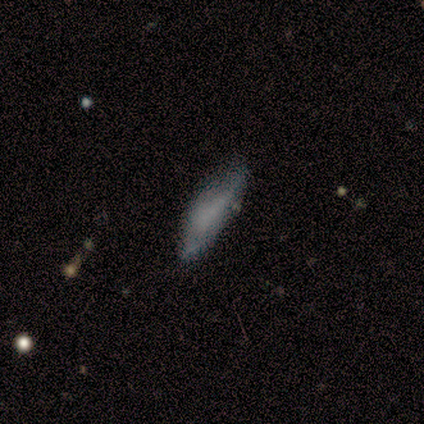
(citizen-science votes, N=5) Volunteers were most divided on "merging" (2-way tie): none: 40%, minor disturbance: 40%, major disturbance: 20%, merger: 0%. More confident: smooth or featured — smooth (100%); how rounded — cigar-shaped (80%).